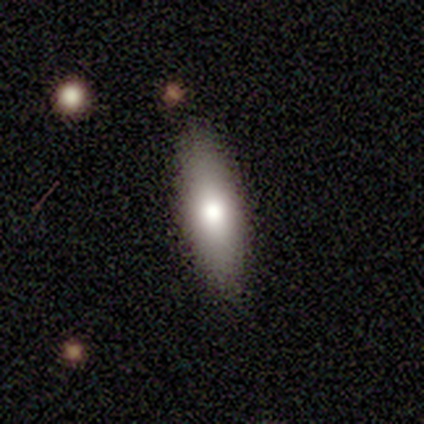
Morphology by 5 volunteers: Smooth or featured? 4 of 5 (80%) said smooth. How rounded? 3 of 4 (75%) said in between. Merging? 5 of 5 (100%) said none.